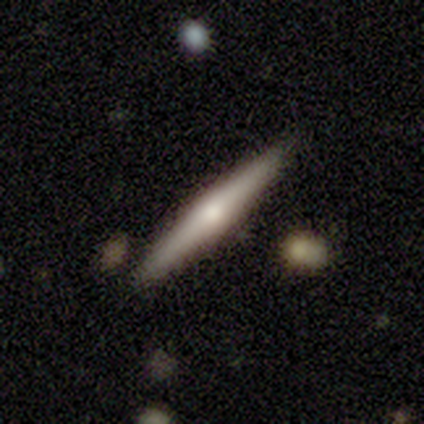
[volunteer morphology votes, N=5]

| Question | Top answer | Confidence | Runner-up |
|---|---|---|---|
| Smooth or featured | featured or disk | 80% | smooth (20%) |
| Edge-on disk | yes | 100% | — |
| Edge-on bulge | rounded | 75% | boxy (25%) |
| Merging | none | 80% | minor disturbance (20%) |